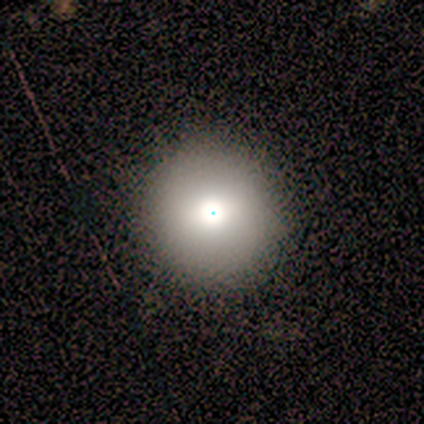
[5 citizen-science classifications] Smooth or featured: smooth — 80% (star or artifact — 20%)
How rounded: round — 100%
Merging: none — 100%